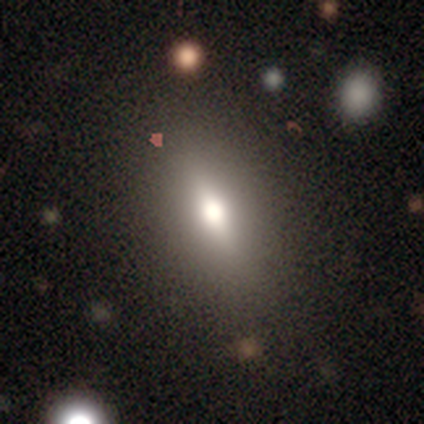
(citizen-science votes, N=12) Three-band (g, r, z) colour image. It shows a smooth galaxy with no disk features (58%) that is in between round and cigar-shaped (71%). Merging: none (78%).